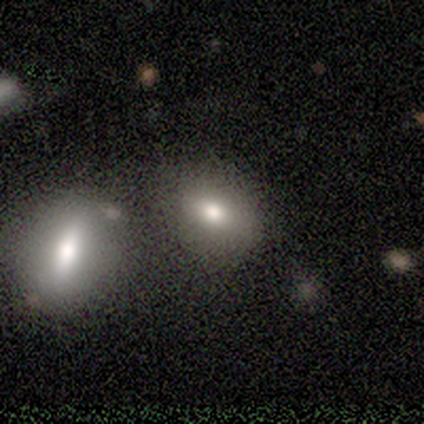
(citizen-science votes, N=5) Q: Smooth or featured?
A: smooth (40%); tied with: featured or disk (40%)
Q: How rounded?
A: in between (100%)
Q: Merging?
A: merger (50%); runner-up: none (25%)